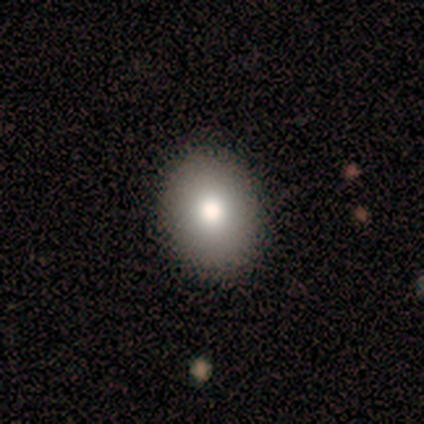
A smooth galaxy with no disk features (60%) that is round (67%). Merging: none (100%).